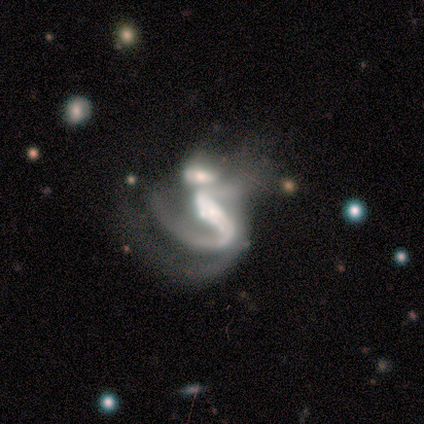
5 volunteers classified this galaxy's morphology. This is clearly a featured or disk galaxy (100%). It is clearly not viewed edge-on (100%). Bar: clearly strong (80%). Spiral arm pattern: clearly yes (100%). Spiral arm count: marginally 2 (40%, tied with can't tell). Spiral winding: likely medium (60%). Central bulge: marginally moderate (40%). Merging: clearly merger (80%).